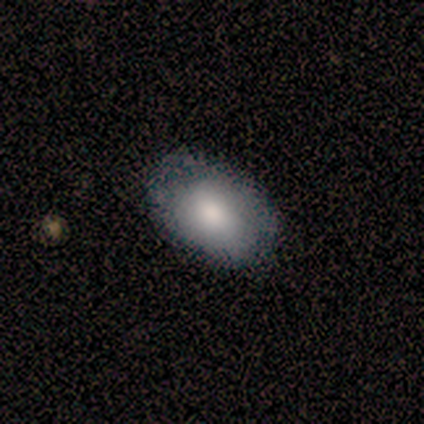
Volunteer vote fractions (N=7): Morphology: type=smooth (71%); roundness=in between (80%); merging=none (71%).